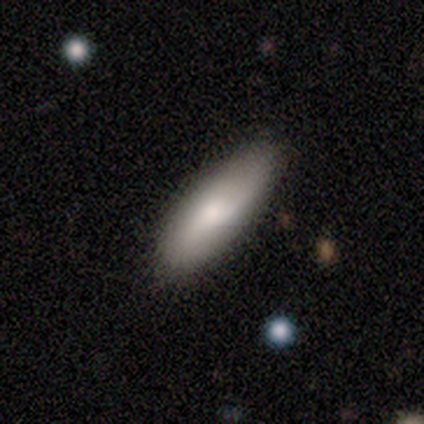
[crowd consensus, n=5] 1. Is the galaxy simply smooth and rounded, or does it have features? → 80% smooth, 20% featured or disk, 0% star or artifact.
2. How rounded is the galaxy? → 75% in between, 25% cigar-shaped, 0% round.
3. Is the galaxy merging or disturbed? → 60% none, 20% minor disturbance, 20% major disturbance, 0% merger.